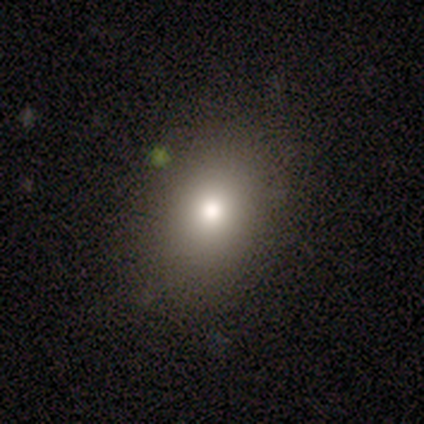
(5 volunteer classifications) A smooth galaxy with no disk features (100%) that is round (60%). Merging: none (100%).